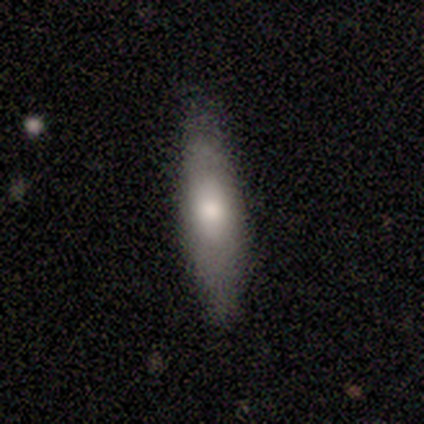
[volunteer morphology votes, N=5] Smooth or featured? smooth (60%)
How rounded? cigar-shaped (67%)
Merging? none (100%)